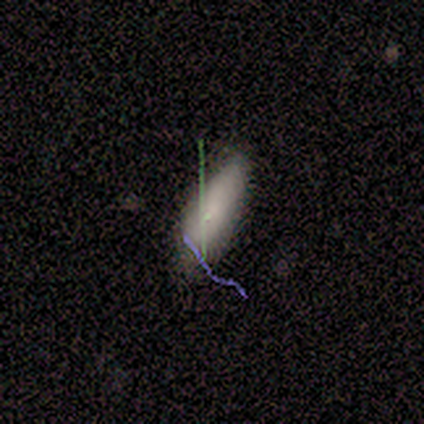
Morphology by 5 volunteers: Q: Smooth or featured?
A: smooth (100%)
Q: How rounded?
A: cigar-shaped (60%); runner-up: in between (40%)
Q: Merging?
A: none (60%); runner-up: minor disturbance (40%)